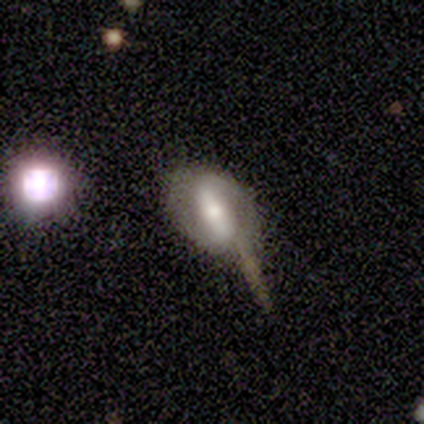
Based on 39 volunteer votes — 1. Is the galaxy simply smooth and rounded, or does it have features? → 67% featured or disk, 26% smooth, 8% star or artifact.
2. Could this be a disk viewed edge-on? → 81% no, 19% yes.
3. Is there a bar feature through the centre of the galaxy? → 62% strong, 29% weak, 10% no.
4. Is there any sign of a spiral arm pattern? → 67% yes, 33% no.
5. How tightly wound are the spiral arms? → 50% tight, 36% medium, 14% loose.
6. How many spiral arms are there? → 86% 2, 7% 1, 7% can't tell, 0% 3, 0% 4, 0% more than 4.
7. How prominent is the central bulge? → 38% moderate, 33% small, 19% large, 10% none, 0% dominant.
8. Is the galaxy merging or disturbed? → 44% none, 28% major disturbance, 14% minor disturbance, 14% merger.